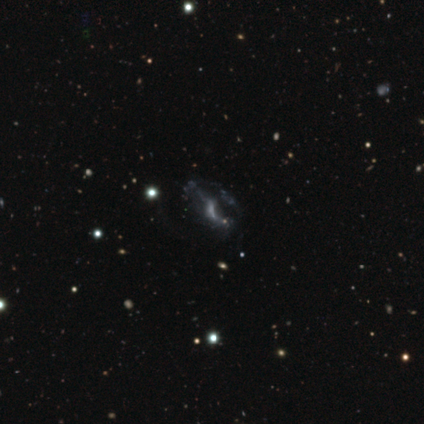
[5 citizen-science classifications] Volunteers were most divided on "spiral winding" (2-way tie): tight: 50%, loose: 50%, medium: 0%; "spiral arm count" (2-way tie): 1: 50%, can't tell: 50%, 2: 0%, 3: 0%, 4: 0%, more than 4: 0%. More confident: edge-on disk — no (100%); bulge size — none (100%); bar — strong (67%); spiral arms — yes (67%); merging — major disturbance (67%); smooth or featured — featured or disk (60%).